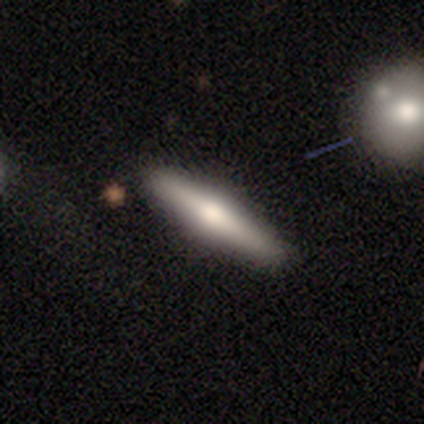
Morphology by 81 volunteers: A featured or disk galaxy (58%) viewed edge-on (94%) with a rounded central bulge (89%). Merging: none (91%).